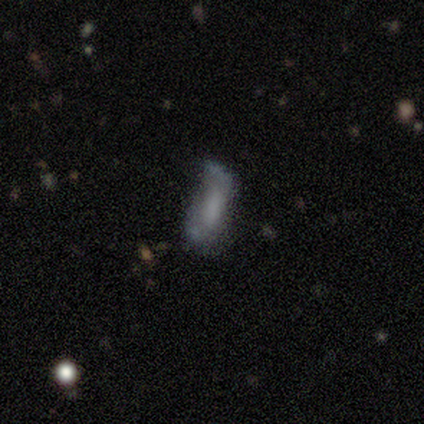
Q: Smooth or featured?
A: smooth (71%); runner-up: featured or disk (29%)
Q: How rounded?
A: in between (80%); runner-up: cigar-shaped (20%)
Q: Merging?
A: minor disturbance (43%); runner-up: none (29%)